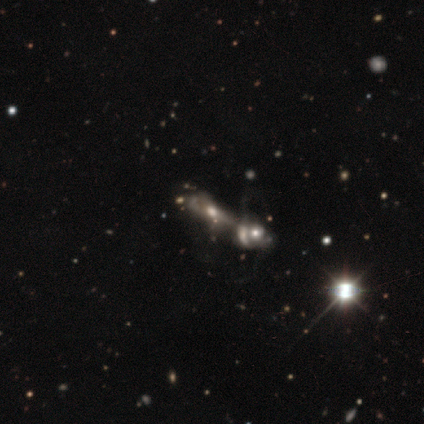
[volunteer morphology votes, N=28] Smooth or featured? featured or disk (68%)
Edge-on disk? no (79%)
Bar? no (93%)
Spiral arms? no (67%)
Bulge size? moderate (53%)
Merging? merger (71%)